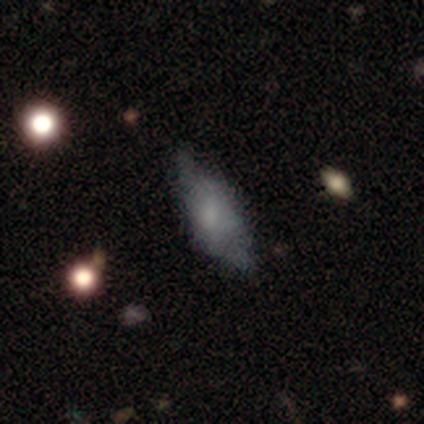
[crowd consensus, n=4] A smooth galaxy with no disk features (50%, tied with featured or disk) that is in between round and cigar-shaped (50%, tied with cigar-shaped).

Vote fractions:
- Smooth or featured? smooth: 50% (tied) / featured or disk: 50% (tied) / star or artifact: 0%
- How rounded? in between: 50% (tied) / cigar-shaped: 50% (tied) / round: 0%
- Merging? none: 75% / minor disturbance: 25% / major disturbance: 0% / merger: 0%